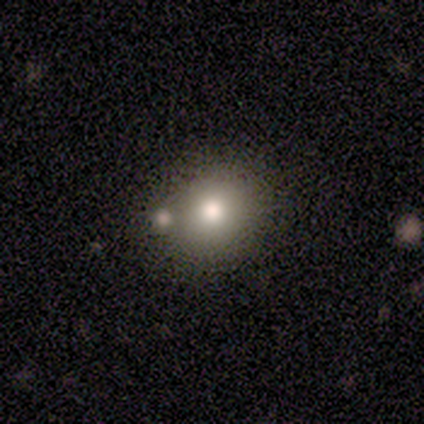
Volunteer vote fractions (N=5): This is likely a smooth galaxy (60%). How rounded: clearly round (100%). Merging: likely none (67%).